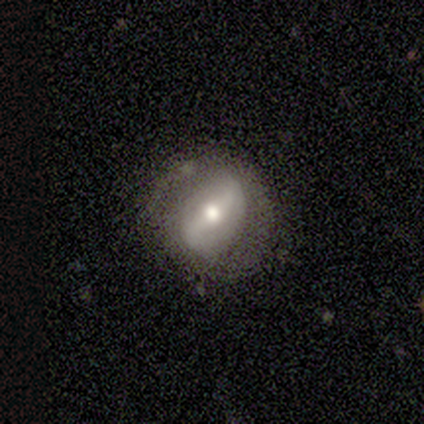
Volunteers were most divided on "spiral winding": loose: 60%, tight: 40%, medium: 0%. More confident: smooth or featured — featured or disk (100%); edge-on disk — no (100%); spiral arms — yes (100%); bulge size — moderate (100%); bar — strong (80%); spiral arm count — 2 (80%); merging — none (60%).